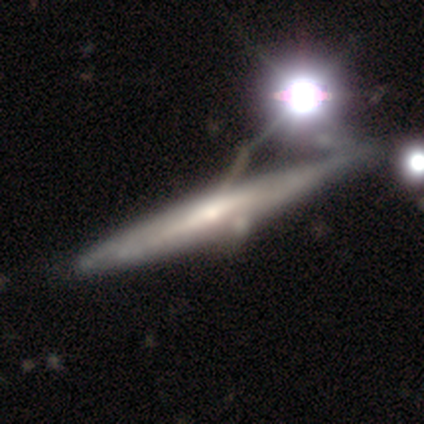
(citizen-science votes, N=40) This appears to be a featured or disk galaxy (72%) viewed edge-on (93%) with a rounded central bulge (52%). Merging: minor disturbance (30%).